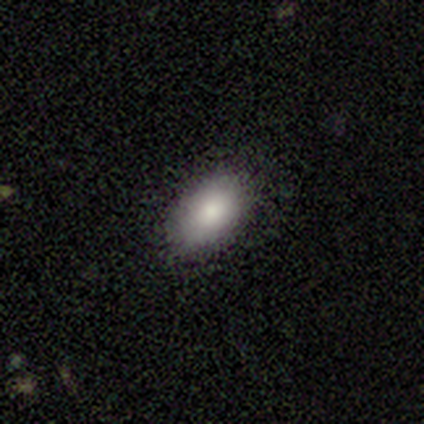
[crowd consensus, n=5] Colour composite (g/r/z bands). It shows a smooth galaxy with no disk features (100%) that is in between round and cigar-shaped (100%). Merging: none (100%).